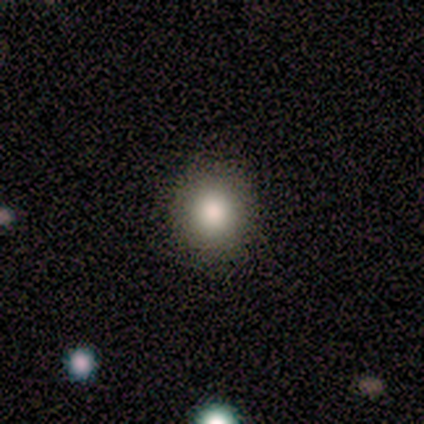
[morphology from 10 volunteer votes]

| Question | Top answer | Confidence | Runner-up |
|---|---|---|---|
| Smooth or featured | smooth | 90% | featured or disk (10%) |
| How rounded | round | 67% | in between (33%) |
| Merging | none | 60% | minor disturbance (40%) |